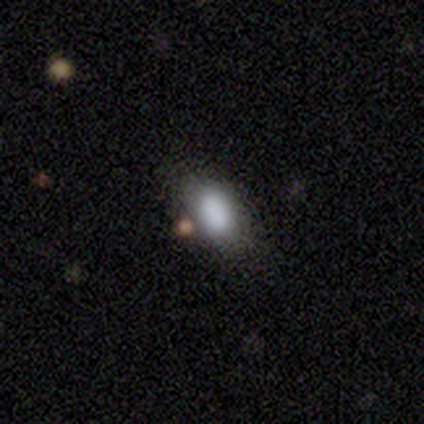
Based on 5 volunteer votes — smooth 80%, star or artifact 20%, featured or disk 0%. Down the decision tree: how rounded — in between (100%); merging — none (75%).